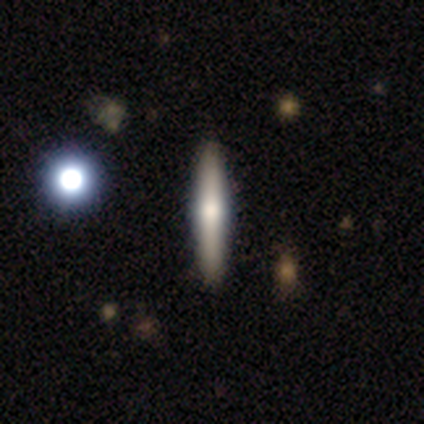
Volunteers were most divided on "smooth or featured": smooth: 60%, featured or disk: 40%, star or artifact: 0%. More confident: how rounded — cigar-shaped (100%); merging — none (100%).